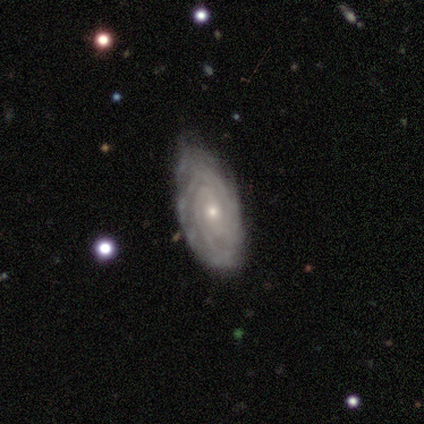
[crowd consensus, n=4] Smooth or featured: featured or disk — 100%
Edge-on disk: no — 100%
Bar: no — 75% (weak — 25%)
Spiral arms: yes — 100%
Spiral winding: tight — 100%
Spiral arm count: 3 — 50% (2 — 25%)
Bulge size: small — 75% (moderate — 25%)
Merging: none — 75% (minor disturbance — 25%)